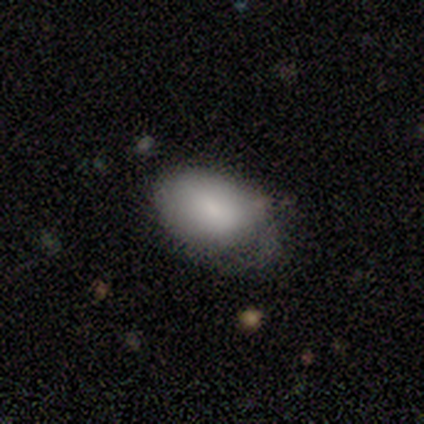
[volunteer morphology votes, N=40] type=smooth (80%); roundness=in between (88%); merging=none (50%).